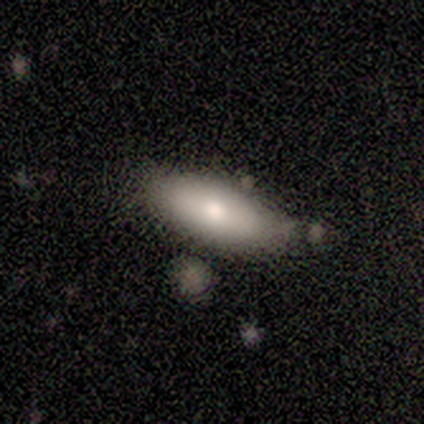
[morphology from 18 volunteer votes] Smooth or featured? smooth (83%)
How rounded? in between (93%)
Merging? none (76%)